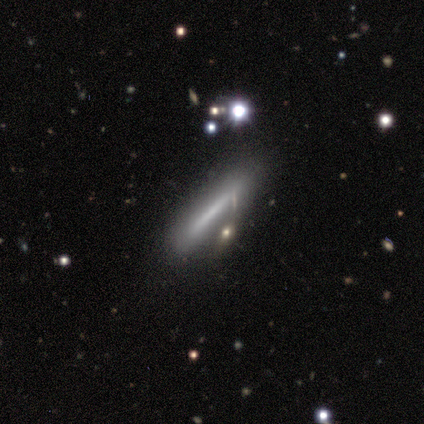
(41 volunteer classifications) Overall: smooth (59%; featured or disk 39%). How rounded: cigar-shaped (88%). Merging: none (60%; minor disturbance 28%).